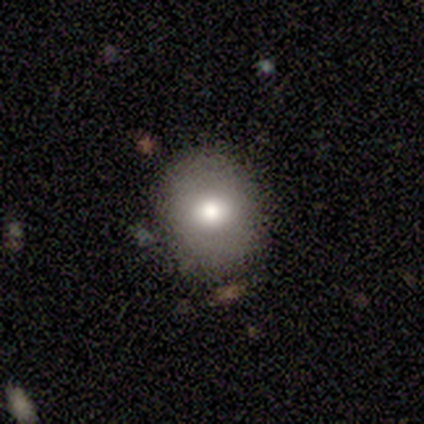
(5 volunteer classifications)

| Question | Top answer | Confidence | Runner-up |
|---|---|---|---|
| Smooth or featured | smooth | 40% | tied: featured or disk (40%) |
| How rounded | round | 50% | tied: in between (50%) |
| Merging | none | 100% | — |